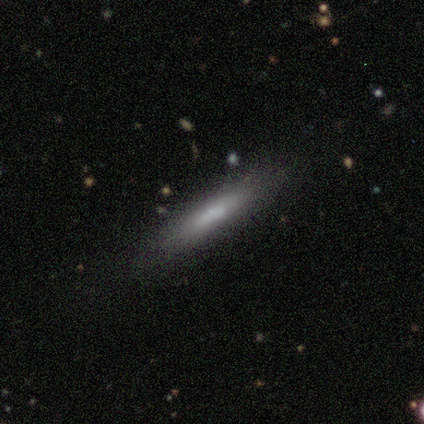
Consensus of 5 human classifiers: Morphology: type=smooth (60%); roundness=cigar-shaped (100%); merging=none (80%).